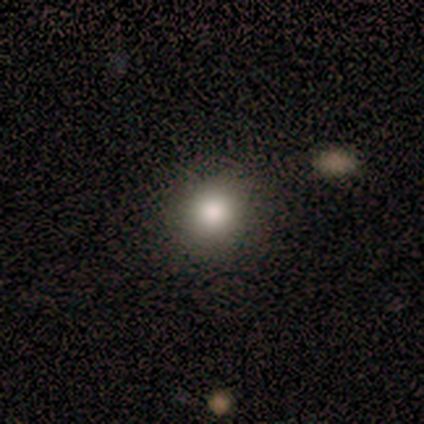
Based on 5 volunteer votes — Q: Smooth or featured?
A: smooth (60%); runner-up: featured or disk (20%)
Q: How rounded?
A: round (100%)
Q: Merging?
A: none (100%)